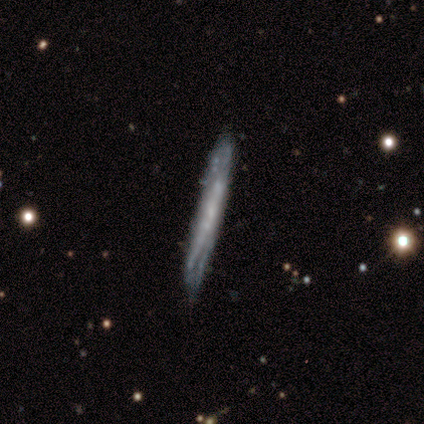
Smooth or featured? featured or disk (100%)
Edge-on disk? yes (57%)
Edge-on bulge? none (75%)
Merging? none (57%)